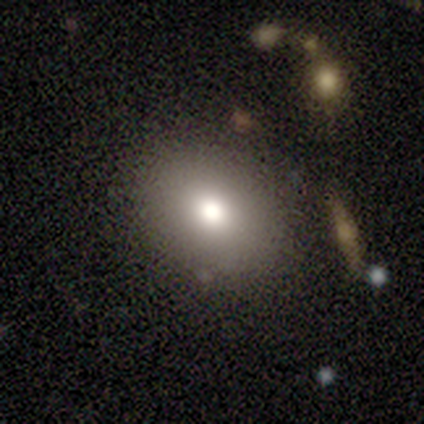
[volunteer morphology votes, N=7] This appears to be a smooth galaxy with no disk features (57%) that is round (50%, tied with in between). Merging: none (100%).